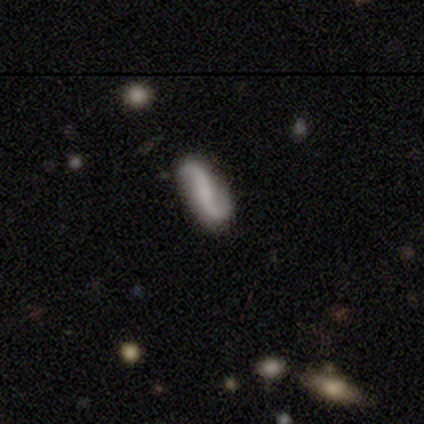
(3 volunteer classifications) A featured or disk galaxy (100%) with no bar (67%), 2 (100%) loose (67%) spiral arms (100%) and a small central bulge (67%).

Vote fractions:
- Smooth or featured? featured or disk: 100% / smooth: 0% / star or artifact: 0%
- Edge-on disk? no: 100% / yes: 0%
- Bar? no: 67% / strong: 33% / weak: 0%
- Spiral arms? yes: 100% / no: 0%
- Spiral winding? loose: 67% / tight: 33% / medium: 0%
- Spiral arm count? 2: 100% / 1: 0% / 3: 0% / 4: 0% / more than 4: 0% / can't tell: 0%
- Bulge size? small: 67% / moderate: 33% / dominant: 0% / large: 0% / none: 0%
- Merging? none: 100% / minor disturbance: 0% / major disturbance: 0% / merger: 0%